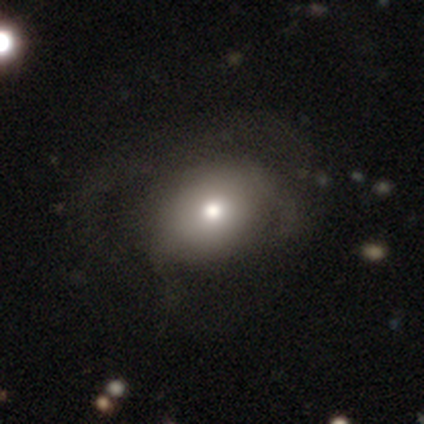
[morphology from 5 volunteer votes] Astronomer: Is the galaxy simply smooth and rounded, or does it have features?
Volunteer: smooth — 80%.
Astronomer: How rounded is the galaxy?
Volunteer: in between — 75%.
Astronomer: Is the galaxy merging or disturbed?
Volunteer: none — 40%, tied with major disturbance at 40%.